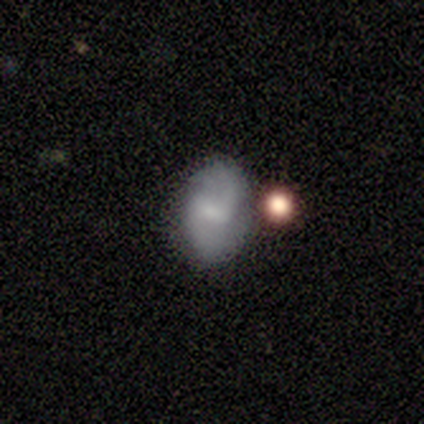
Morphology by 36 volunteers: Smooth or featured? 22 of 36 (61%) said featured or disk. Edge-on disk? 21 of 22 (95%) said no. Bar? 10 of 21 (48%) said weak. Spiral arms? 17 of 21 (81%) said yes. Spiral winding? 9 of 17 (53%) said loose. Spiral arm count? 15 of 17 (88%) said 2. Bulge size? 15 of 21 (71%) said small. Merging? 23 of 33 (70%) said none.